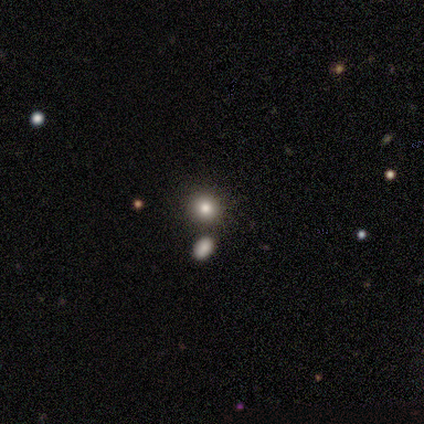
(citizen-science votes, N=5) Volunteers were most divided on "how rounded": round: 50%, in between: 25%, cigar-shaped: 25%. More confident: smooth or featured — smooth (80%); merging — none (50%).